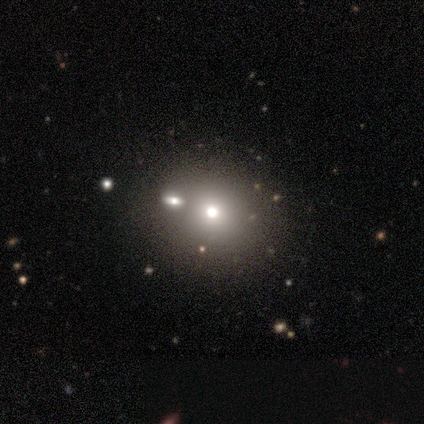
Smooth or featured?
  - smooth: 60% *
  - featured or disk: 20%
  - star or artifact: 20%
How rounded?
  - round: 67% *
  - in between: 33%
  - cigar-shaped: 0%
Merging?
  - minor disturbance: 50% *
  - none: 25%
  - merger: 25%
  - major disturbance: 0%